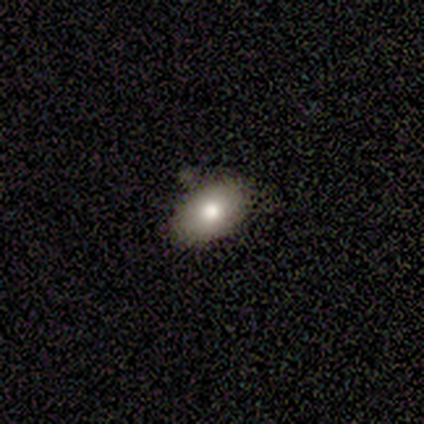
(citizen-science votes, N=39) smooth 74%, featured or disk 21%, star or artifact 5%. Down the decision tree: how rounded — in between (83%); merging — none (73%).